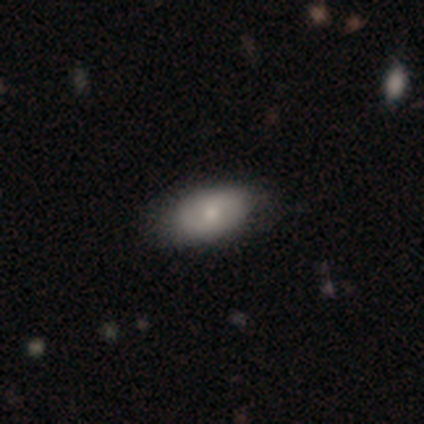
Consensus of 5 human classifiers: Volunteers were most divided on "smooth or featured": featured or disk: 60%, smooth: 40%, star or artifact: 0%. More confident: edge-on disk — no (100%); bar — no (100%); bulge size — moderate (100%); merging — none (100%); spiral arms — no (67%).